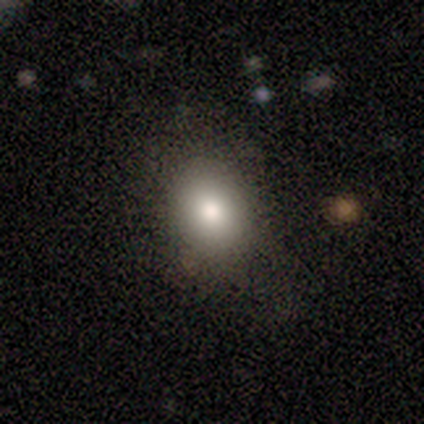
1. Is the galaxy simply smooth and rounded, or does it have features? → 80% smooth, 20% star or artifact, 0% featured or disk.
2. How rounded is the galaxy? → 100% in between, 0% round, 0% cigar-shaped.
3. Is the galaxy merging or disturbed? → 100% none, 0% minor disturbance, 0% major disturbance, 0% merger.